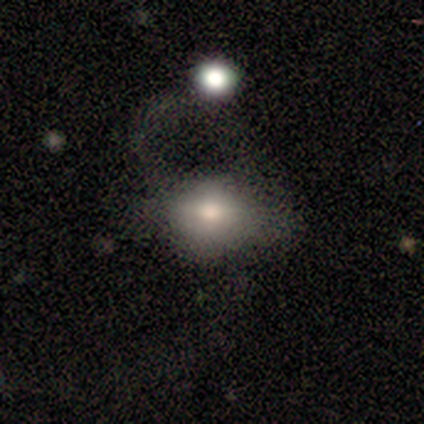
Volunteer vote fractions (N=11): Volunteers were most divided on "merging" (2-way tie): none: 36%, major disturbance: 36%, merger: 18%, minor disturbance: 9%. More confident: how rounded — in between (100%); smooth or featured — smooth (82%).